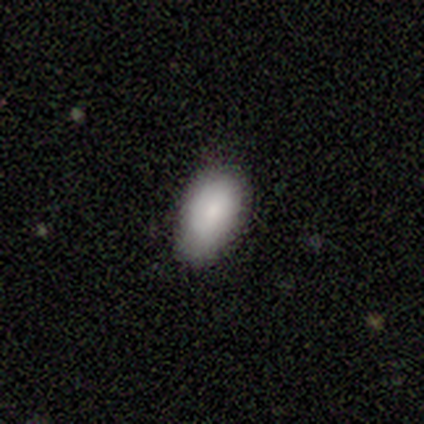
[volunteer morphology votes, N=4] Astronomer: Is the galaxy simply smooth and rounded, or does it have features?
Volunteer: smooth — 100%.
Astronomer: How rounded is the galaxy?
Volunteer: in between — 100%.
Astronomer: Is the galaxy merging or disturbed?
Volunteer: none — 75%.